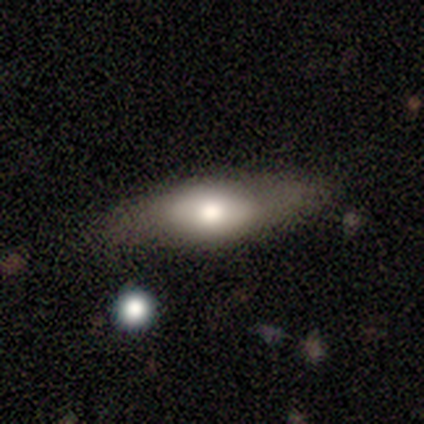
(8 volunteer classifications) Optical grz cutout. It shows a smooth galaxy with no disk features (75%) that is in between round and cigar-shaped (50%). Merging: none (62%).